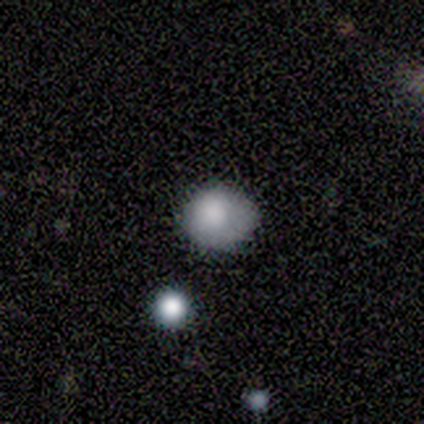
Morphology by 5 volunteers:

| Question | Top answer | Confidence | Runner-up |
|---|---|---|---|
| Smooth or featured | smooth | 60% | featured or disk (40%) |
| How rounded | round | 100% | — |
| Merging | minor disturbance | 60% | none (20%) |